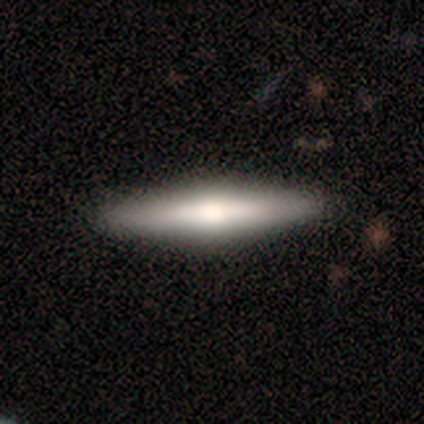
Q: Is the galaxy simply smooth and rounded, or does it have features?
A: smooth — 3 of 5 (60%).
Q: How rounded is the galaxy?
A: cigar-shaped — 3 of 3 (100%).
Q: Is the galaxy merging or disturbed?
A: none — 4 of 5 (80%).